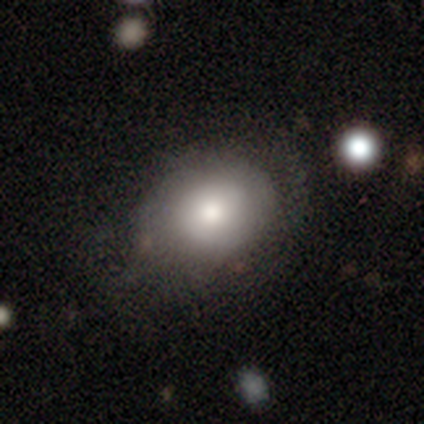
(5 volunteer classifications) Overall: smooth (80%). How rounded: round (75%). Merging: none (60%; minor disturbance 20%).